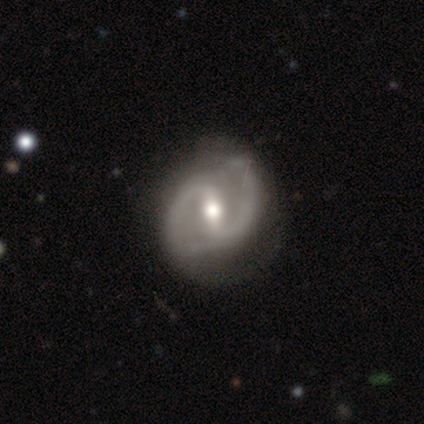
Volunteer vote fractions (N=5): smooth_or_featured: featured or disk (p=0.80) [alt: smooth p=0.20]
disk_edge_on: no (p=1.00)
bar: strong (p=0.50) [tied with: weak p=0.50]
has_spiral_arms: yes (p=1.00)
spiral_winding: medium (p=0.50) [alt: tight p=0.25]
spiral_arm_count: 2 (p=1.00)
bulge_size: moderate (p=1.00)
merging: minor disturbance (p=0.60) [alt: none p=0.40]